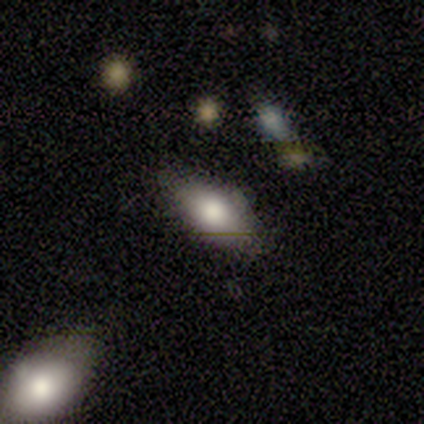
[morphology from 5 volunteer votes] smooth-or-featured: smooth: 80% | featured or disk: 20% | star or artifact: 0%
  how-rounded: in between: 100% | round: 0% | cigar-shaped: 0%
  merging: none: 100% | minor disturbance: 0% | major disturbance: 0% | merger: 0%